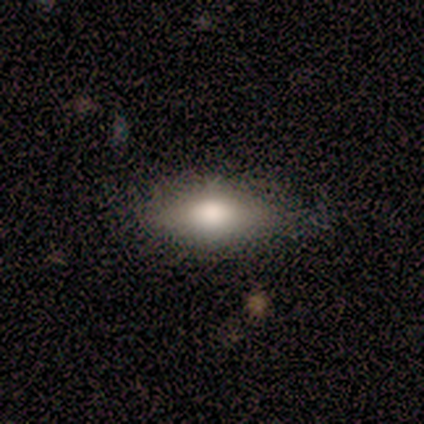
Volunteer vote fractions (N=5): This is clearly a smooth galaxy (80%). How rounded: likely in between (75%). Merging: clearly none (100%).